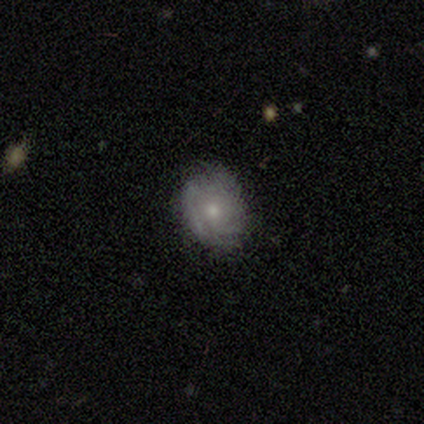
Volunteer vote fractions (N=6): Q: Smooth or featured?
A: smooth (67%); runner-up: featured or disk (33%)
Q: How rounded?
A: in between (75%); runner-up: round (25%)
Q: Merging?
A: none (50%); runner-up: minor disturbance (33%)